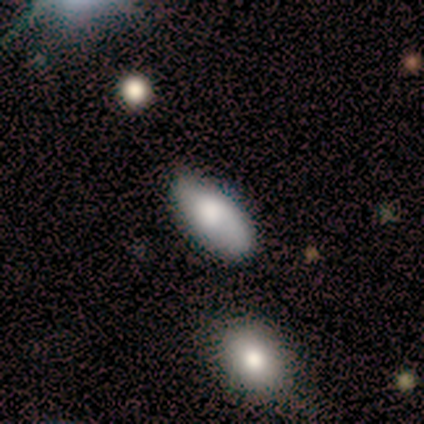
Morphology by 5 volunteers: Smooth or featured? 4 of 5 (80%) said smooth. How rounded? 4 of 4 (100%) said in between. Merging? 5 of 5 (100%) said none.